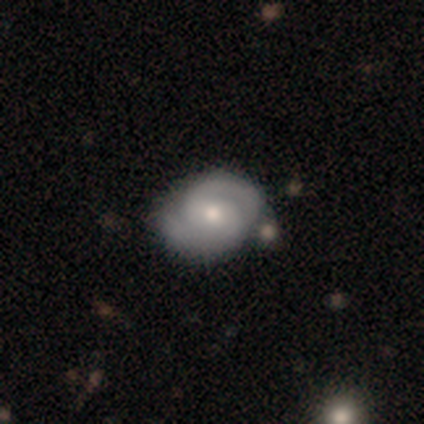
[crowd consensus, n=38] Volunteers were most divided on "bar": no: 56%, weak: 35%, strong: 9%. More confident: edge-on disk — no (100%); spiral arms — yes (94%); spiral arm count — 2 (94%); smooth or featured — featured or disk (89%); spiral winding — tight (69%); bulge size — moderate (65%); merging — none (56%).